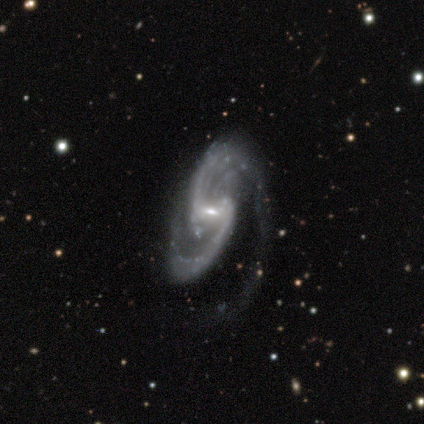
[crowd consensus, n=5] Volunteers were most divided on "spiral winding": medium: 60%, loose: 40%, tight: 0%. More confident: smooth or featured — featured or disk (100%); edge-on disk — no (100%); spiral arms — yes (100%); bar — weak (80%); spiral arm count — 2 (80%); merging — major disturbance (80%); bulge size — small (60%).